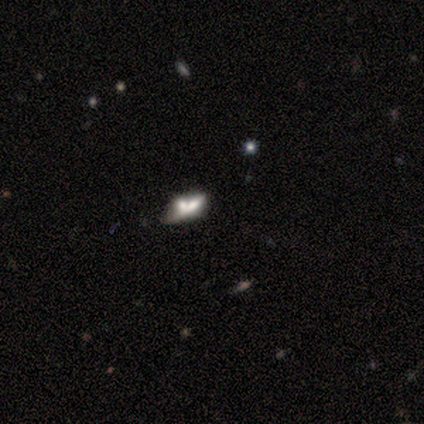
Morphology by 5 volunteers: smooth-or-featured: smooth: 60% | featured or disk: 40% | star or artifact: 0%
  how-rounded: in between: 67% | cigar-shaped: 33% | round: 0%
  merging: merger: 60% | none: 40% | minor disturbance: 0% | major disturbance: 0%